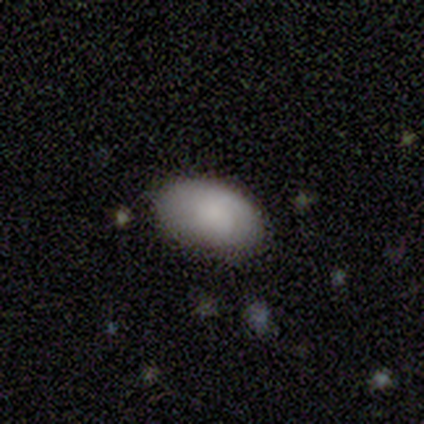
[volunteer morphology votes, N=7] smooth_or_featured: smooth (p=1.00)
how_rounded: in between (p=1.00)
merging: none (p=0.71) [alt: minor disturbance p=0.14]